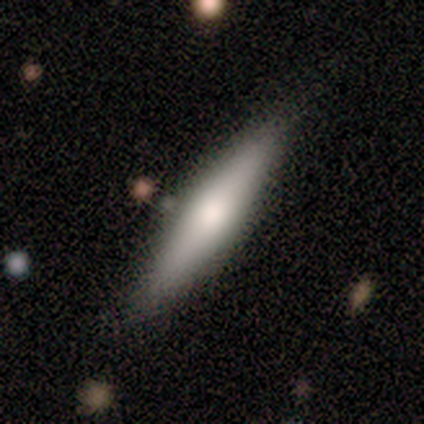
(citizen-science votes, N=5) Smooth or featured? 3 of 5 (60%) said smooth. How rounded? 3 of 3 (100%) said cigar-shaped. Merging? 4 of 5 (80%) said none.